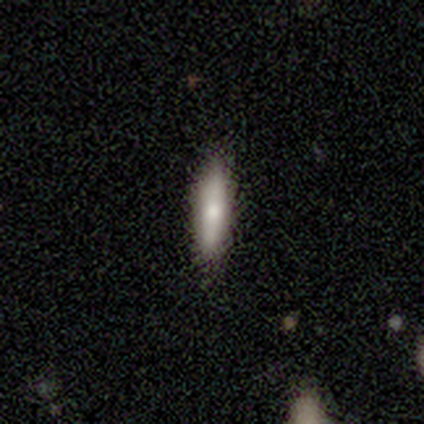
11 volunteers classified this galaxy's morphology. smooth-or-featured: smooth: 82% | featured or disk: 9% | star or artifact: 9%
  how-rounded: cigar-shaped: 67% | in between: 33% | round: 0%
  merging: none: 100% | minor disturbance: 0% | major disturbance: 0% | merger: 0%